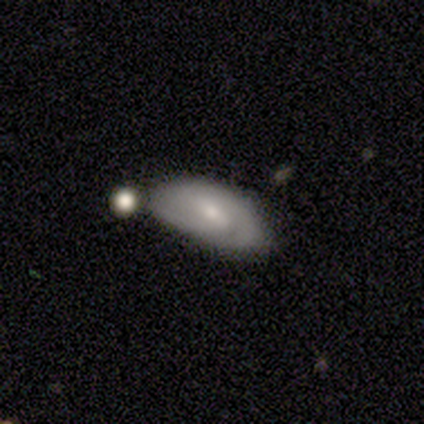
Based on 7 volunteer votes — This is possibly a featured or disk galaxy (57%). It is clearly not viewed edge-on (100%). Bar: possibly weak (50%). Spiral arm pattern: clearly yes (100%). Spiral arm count: likely 2 (75%). Spiral winding: possibly tight (50%). Central bulge: possibly moderate (50%, tied with small). Merging: marginally none (43%).